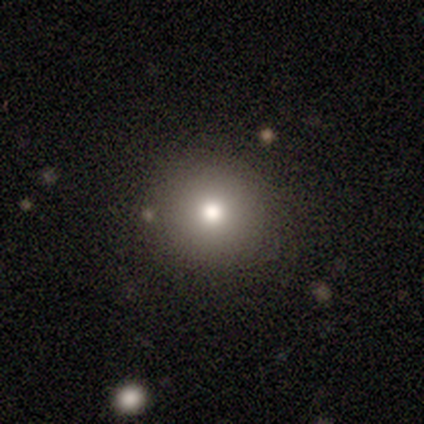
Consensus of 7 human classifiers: A smooth galaxy with no disk features (57%) that is round (100%). Merging: none (100%).